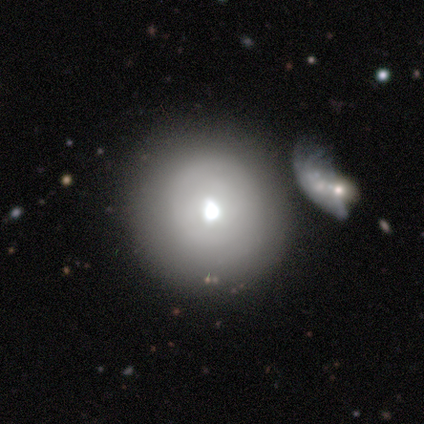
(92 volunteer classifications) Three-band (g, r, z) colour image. It shows a smooth galaxy with no disk features (60%) that is round (96%). Merging: none (57%).